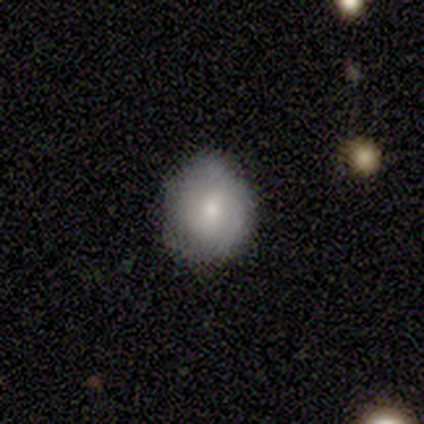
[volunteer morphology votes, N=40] smooth-or-featured: smooth: 48% | featured or disk: 45% | star or artifact: 8%
  how-rounded: round: 84% | in between: 16% | cigar-shaped: 0%
  merging: none: 62% | minor disturbance: 35% | major disturbance: 3% | merger: 0%